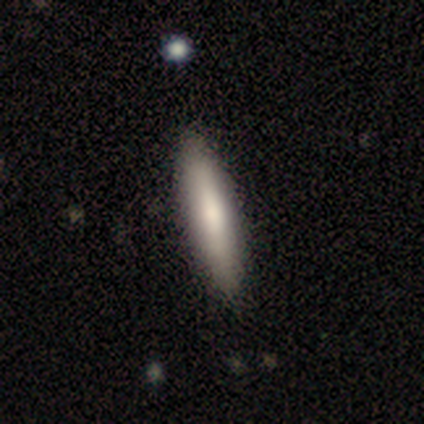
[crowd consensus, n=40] Smooth or featured: smooth — 72% (featured or disk — 18%)
How rounded: cigar-shaped — 83% (in between — 17%)
Merging: none — 67% (major disturbance — 3%)